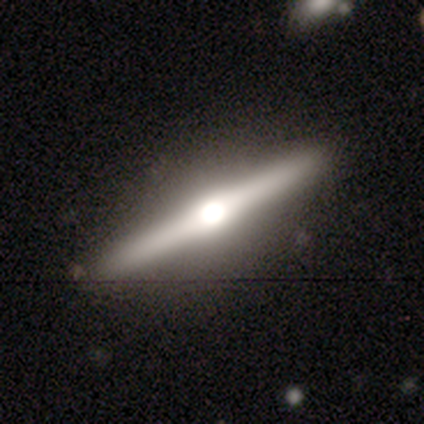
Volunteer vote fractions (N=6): A featured or disk galaxy (83%) viewed edge-on (100%) with a rounded central bulge (100%).

Vote fractions:
- Smooth or featured? featured or disk: 83% / smooth: 17% / star or artifact: 0%
- Edge-on disk? yes: 100% / no: 0%
- Edge-on bulge? rounded: 100% / boxy: 0% / none: 0%
- Merging? none: 100% / minor disturbance: 0% / major disturbance: 0% / merger: 0%